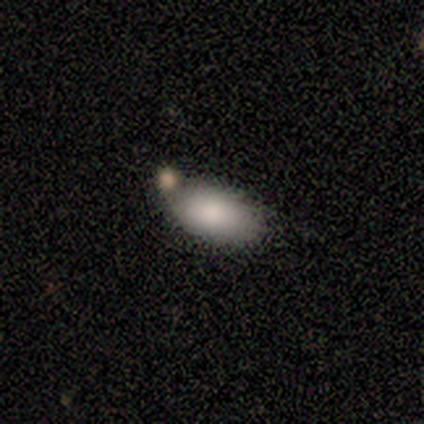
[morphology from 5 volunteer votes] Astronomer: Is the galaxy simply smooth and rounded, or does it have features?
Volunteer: smooth — 80%.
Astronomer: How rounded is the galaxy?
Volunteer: in between — 100%.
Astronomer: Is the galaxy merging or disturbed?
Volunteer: none — 60% (runner-up: merger, 40%).